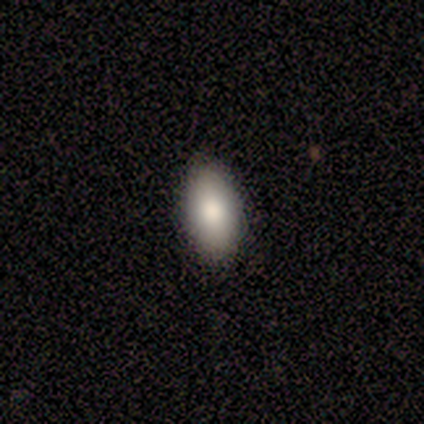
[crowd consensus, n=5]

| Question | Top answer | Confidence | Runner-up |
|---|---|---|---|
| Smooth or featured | smooth | 60% | featured or disk (40%) |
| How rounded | in between | 100% | — |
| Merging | none | 100% | — |